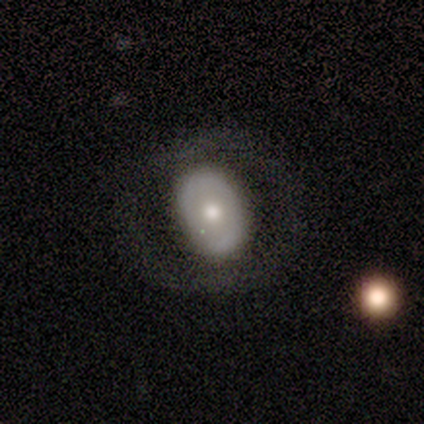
smooth_or_featured: featured or disk (p=0.49) [alt: smooth p=0.46]
disk_edge_on: no (p=0.95) [alt: yes p=0.05]
bar: no (p=0.95) [alt: strong p=0.03]
has_spiral_arms: no (p=0.86) [alt: yes p=0.14]
bulge_size: moderate (p=0.68) [alt: small p=0.16]
merging: none (p=0.44) [alt: minor disturbance p=0.09]